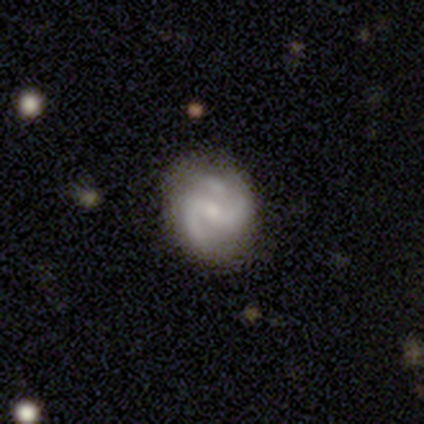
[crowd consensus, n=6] Smooth or featured? featured or disk (100%)
Edge-on disk? no (100%)
Bar? strong (50%)
Spiral arms? yes (100%)
Spiral winding? medium (50%)
Spiral arm count? 2 (100%)
Bulge size? small (50%)
Merging? none (50%)